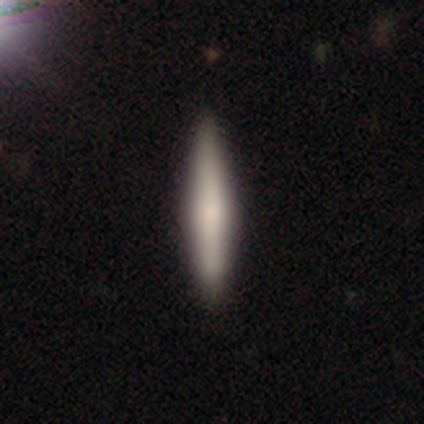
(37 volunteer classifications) A smooth galaxy with no disk features (59%) that is cigar-shaped (100%).

Vote fractions:
- Smooth or featured? smooth: 59% / featured or disk: 35% / star or artifact: 5%
- How rounded? cigar-shaped: 100% / round: 0% / in between: 0%
- Merging? none: 91% / minor disturbance: 9% / major disturbance: 0% / merger: 0%